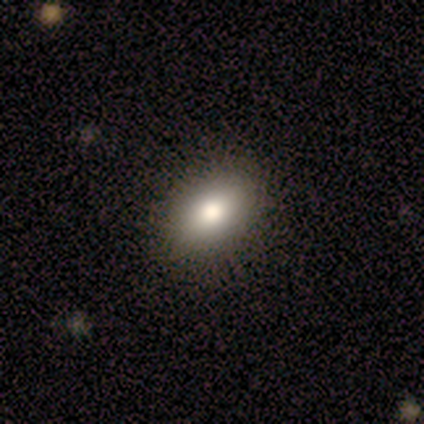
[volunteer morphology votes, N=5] A smooth galaxy with no disk features (80%) that is in between round and cigar-shaped (100%).

Vote fractions:
- Smooth or featured? smooth: 80% / star or artifact: 20% / featured or disk: 0%
- How rounded? in between: 100% / round: 0% / cigar-shaped: 0%
- Merging? none: 75% / minor disturbance: 25% / major disturbance: 0% / merger: 0%